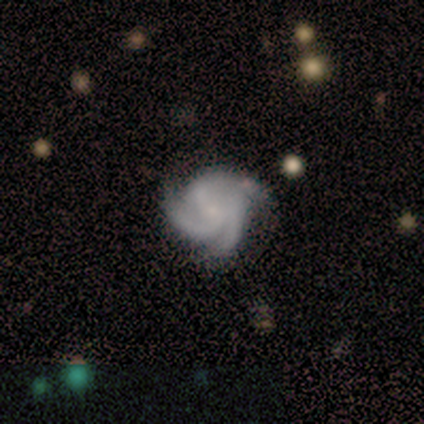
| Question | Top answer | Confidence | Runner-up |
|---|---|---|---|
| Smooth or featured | featured or disk | 80% | smooth (20%) |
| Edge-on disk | no | 100% | — |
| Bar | no | 75% | weak (25%) |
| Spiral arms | yes | 100% | — |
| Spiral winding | tight | 75% | medium (25%) |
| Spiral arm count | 3 | 50% | tied: 4 (50%) |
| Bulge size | small | 75% | none (25%) |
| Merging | none | 80% | minor disturbance (20%) |